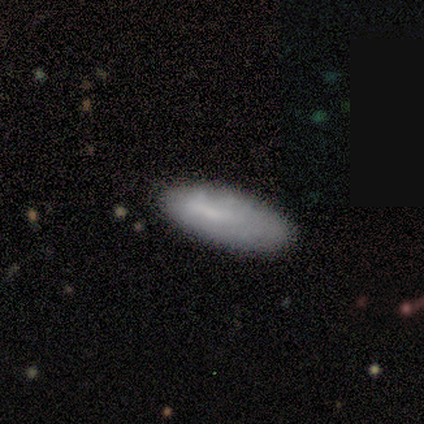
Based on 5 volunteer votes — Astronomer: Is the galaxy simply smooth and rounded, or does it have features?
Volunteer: smooth — 100%.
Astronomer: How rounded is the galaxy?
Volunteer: in between — 60% (runner-up: cigar-shaped, 40%).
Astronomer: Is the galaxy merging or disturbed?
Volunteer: none — 80%.